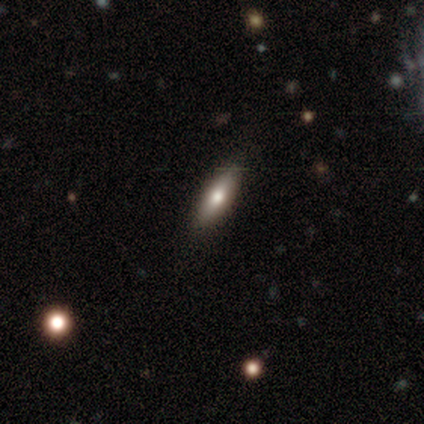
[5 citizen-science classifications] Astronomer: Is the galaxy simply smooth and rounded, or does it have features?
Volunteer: smooth — 60%.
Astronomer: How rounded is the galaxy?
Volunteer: cigar-shaped — 100%.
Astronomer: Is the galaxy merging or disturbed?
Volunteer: none — 100%.